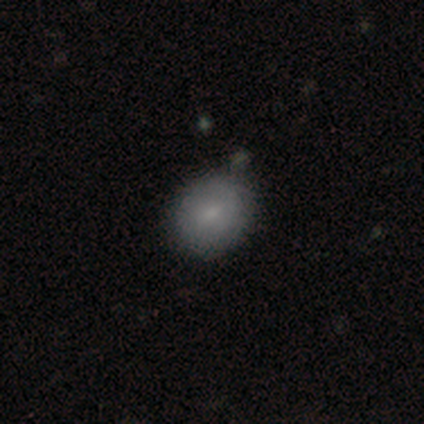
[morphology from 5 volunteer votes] Smooth or featured? smooth (80%)
How rounded? round (75%)
Merging? none (40%, tied with minor disturbance)